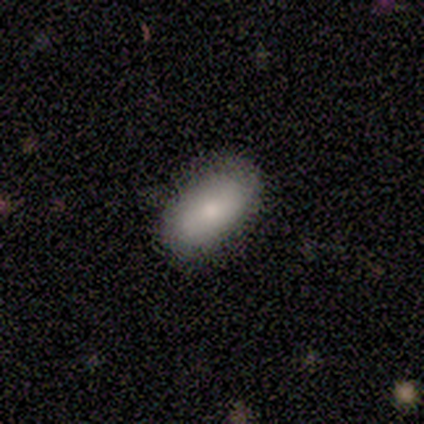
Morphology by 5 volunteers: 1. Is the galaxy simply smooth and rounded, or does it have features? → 100% smooth, 0% featured or disk, 0% star or artifact.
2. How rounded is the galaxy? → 100% in between, 0% round, 0% cigar-shaped.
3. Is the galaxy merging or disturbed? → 100% none, 0% minor disturbance, 0% major disturbance, 0% merger.